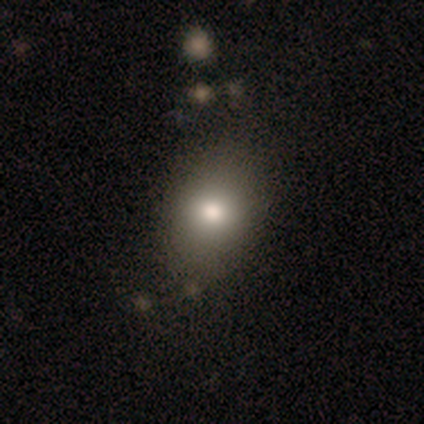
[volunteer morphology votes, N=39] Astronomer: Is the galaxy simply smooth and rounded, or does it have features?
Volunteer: smooth — 69%.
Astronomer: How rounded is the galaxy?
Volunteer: in between — 56% (runner-up: round, 41%).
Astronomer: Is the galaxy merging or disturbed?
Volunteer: none — 83%.